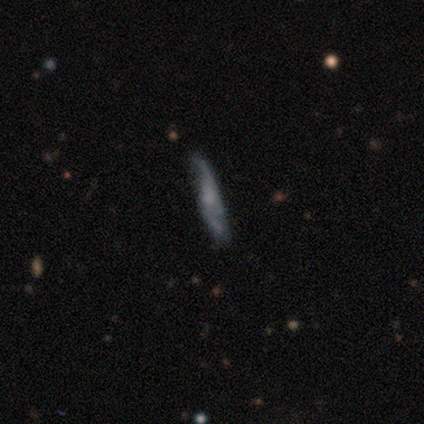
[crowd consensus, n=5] A featured or disk galaxy (80%) with no bar (100%), 2 (75%) medium (50%, tied with loose) spiral arms (100%) and a small central bulge (50%).

Vote fractions:
- Smooth or featured? featured or disk: 80% / smooth: 20% / star or artifact: 0%
- Edge-on disk? no: 100% / yes: 0%
- Bar? no: 100% / strong: 0% / weak: 0%
- Spiral arms? yes: 100% / no: 0%
- Spiral winding? medium: 50% (tied) / loose: 50% (tied) / tight: 0%
- Spiral arm count? 2: 75% / can't tell: 25% / 1: 0% / 3: 0% / 4: 0% / more than 4: 0%
- Bulge size? small: 50% / moderate: 25% / none: 25% / dominant: 0% / large: 0%
- Merging? minor disturbance: 60% / none: 40% / major disturbance: 0% / merger: 0%